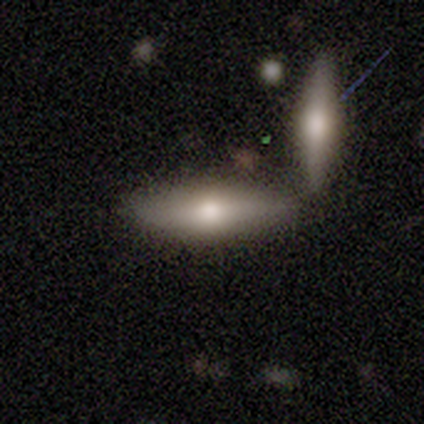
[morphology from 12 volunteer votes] This is possibly a smooth galaxy (58%). How rounded: likely cigar-shaped (71%). Merging: marginally none (42%, tied with merger).